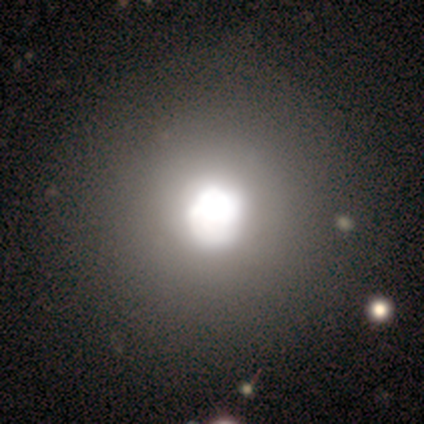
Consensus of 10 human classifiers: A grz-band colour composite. It shows a smooth galaxy with no disk features (70%) that is round (100%). Merging: none (71%).